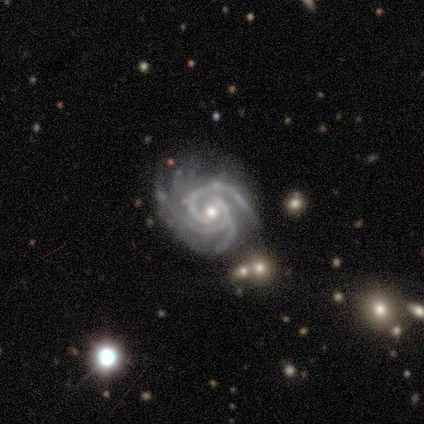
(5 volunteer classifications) This is clearly a featured or disk galaxy (100%). It is clearly not viewed edge-on (80%). Bar: possibly weak (50%, tied with no). Spiral arm pattern: clearly yes (100%). Spiral arm count: likely 3 (75%). Spiral winding: clearly tight (100%). Central bulge: likely small (75%). Merging: clearly none (80%).